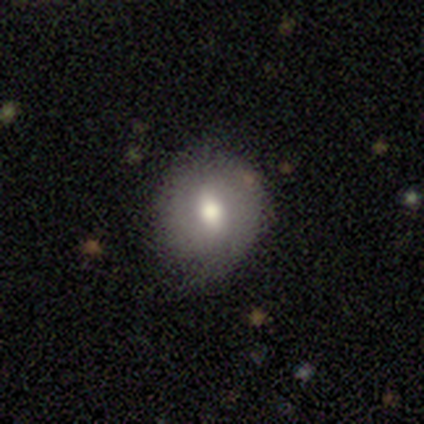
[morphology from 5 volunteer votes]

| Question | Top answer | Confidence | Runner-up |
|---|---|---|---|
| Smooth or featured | smooth | 60% | featured or disk (40%) |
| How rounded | round | 67% | in between (33%) |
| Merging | none | 100% | — |